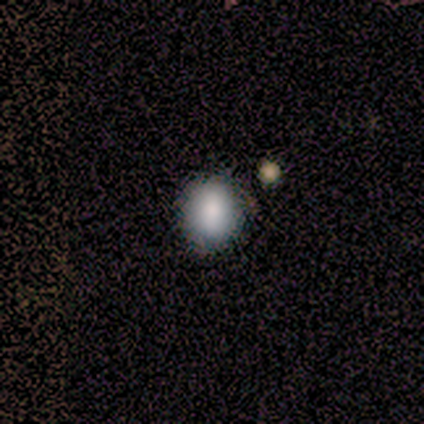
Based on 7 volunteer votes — Q: Smooth or featured?
A: smooth (43%); runner-up: featured or disk (29%)
Q: How rounded?
A: round (67%); runner-up: in between (33%)
Q: Merging?
A: none (100%)